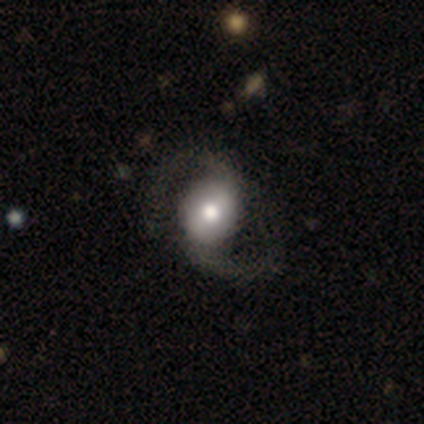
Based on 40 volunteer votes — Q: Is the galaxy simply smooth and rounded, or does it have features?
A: featured or disk — 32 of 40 (80%).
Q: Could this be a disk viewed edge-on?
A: no — 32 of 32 (100%).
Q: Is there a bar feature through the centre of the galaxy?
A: weak — 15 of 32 (47%).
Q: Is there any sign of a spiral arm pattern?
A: yes — 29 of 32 (91%).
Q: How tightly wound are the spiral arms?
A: loose — 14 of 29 (48%).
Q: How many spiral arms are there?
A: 2 — 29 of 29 (100%).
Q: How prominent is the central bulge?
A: moderate — 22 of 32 (69%).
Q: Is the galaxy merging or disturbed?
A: none — 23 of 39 (59%).